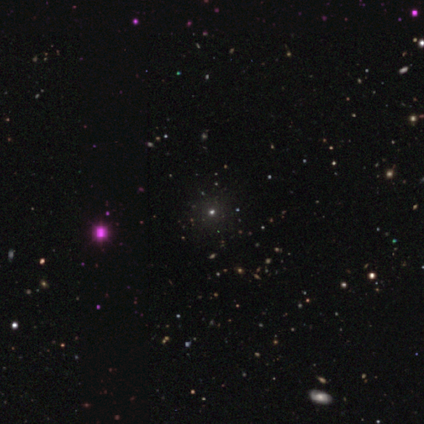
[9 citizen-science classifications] Smooth or featured: star or artifact — 67% (smooth — 22%)